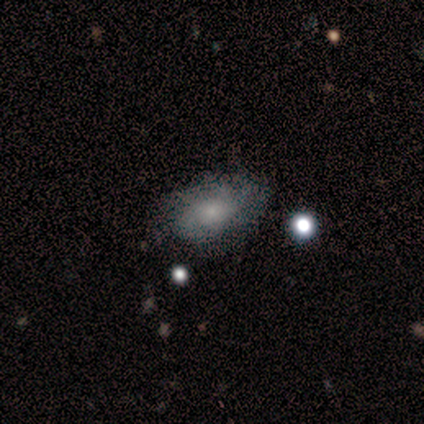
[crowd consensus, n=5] This appears to be a smooth galaxy with no disk features (60%) that is in between round and cigar-shaped (100%). Merging: minor disturbance (60%).